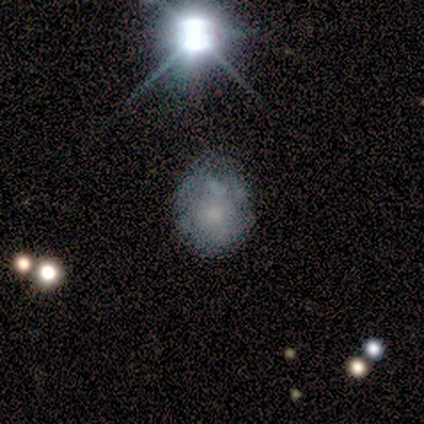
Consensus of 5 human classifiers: Smooth or featured: featured or disk — 60% (smooth — 40%)
Edge-on disk: no — 100%
Bar: no — 100%
Spiral arms: no — 100%
Bulge size: small — 67% (moderate — 33%)
Merging: none — 40% (minor disturbance — 20%)